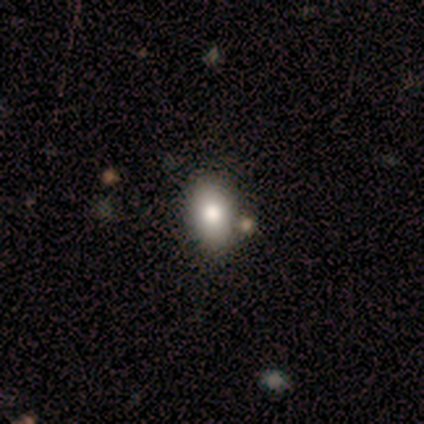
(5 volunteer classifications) Overall: smooth (80%). How rounded: in between (100%). Merging: none (100%).